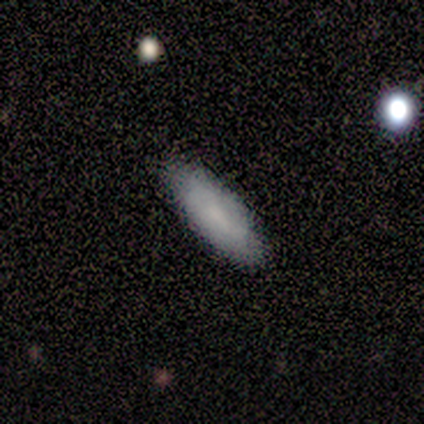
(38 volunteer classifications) Volunteers were most divided on "how rounded": in between: 61%, cigar-shaped: 39%, round: 0%. More confident: merging — none (89%); smooth or featured — smooth (82%).